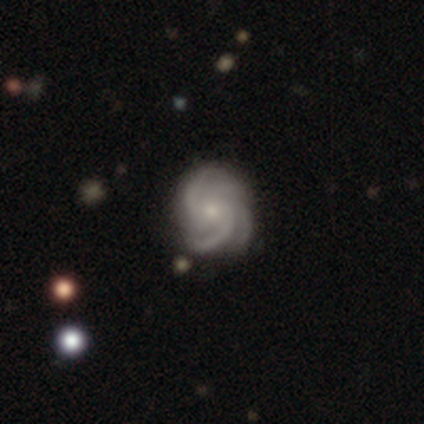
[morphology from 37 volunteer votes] This is clearly a featured or disk galaxy (95%). It is clearly not viewed edge-on (100%). Bar: likely no (66%). Spiral arm pattern: clearly yes (97%). Spiral arm count: marginally 4 (41%). Spiral winding: possibly tight (47%). Central bulge: likely small (60%). Merging: likely none (78%).